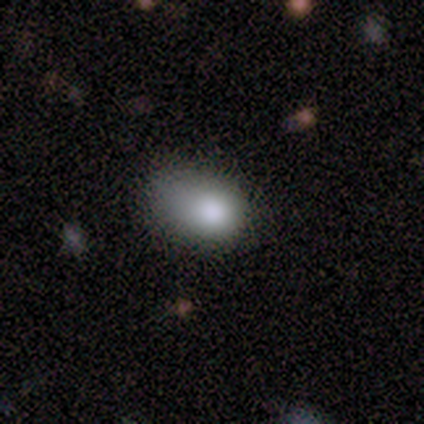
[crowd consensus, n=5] Smooth or featured: smooth — 80% (star or artifact — 20%)
How rounded: in between — 100%
Merging: none — 50% (tied with minor disturbance — 50%)